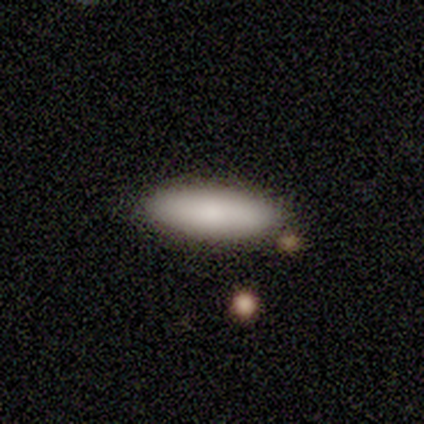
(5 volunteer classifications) This appears to be a smooth galaxy with no disk features (100%) that is in between round and cigar-shaped (60%). Merging: none (100%).